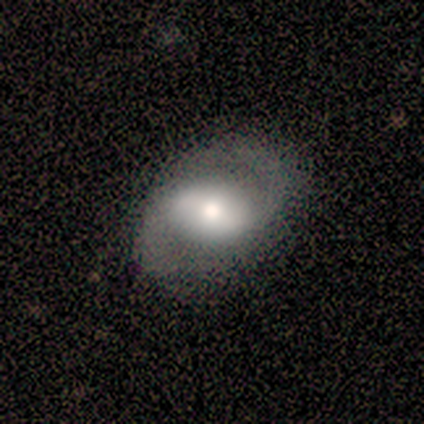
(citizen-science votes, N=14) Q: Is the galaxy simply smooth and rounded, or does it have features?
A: featured or disk — 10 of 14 (71%).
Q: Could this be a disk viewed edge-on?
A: no — 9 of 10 (90%).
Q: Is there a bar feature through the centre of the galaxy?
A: weak — 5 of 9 (56%).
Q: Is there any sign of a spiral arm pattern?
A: yes — 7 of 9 (78%).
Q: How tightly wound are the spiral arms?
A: medium — 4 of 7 (57%).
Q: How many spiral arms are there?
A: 2 — 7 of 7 (100%).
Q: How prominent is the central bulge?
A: large — 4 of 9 (44%, tied with moderate).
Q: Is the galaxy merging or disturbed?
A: none — 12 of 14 (86%).